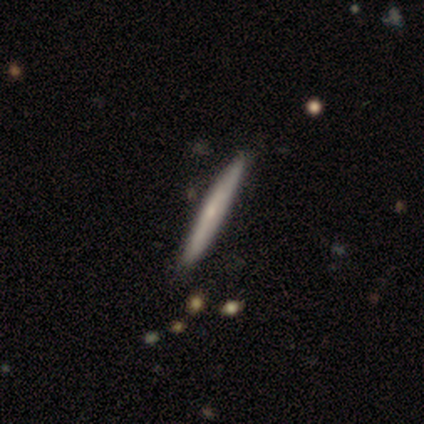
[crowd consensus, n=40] Volunteers were most divided on "smooth or featured": featured or disk: 50%, smooth: 48%, star or artifact: 2%. More confident: edge-on disk — yes (95%); merging — none (64%); edge-on bulge — none (53%).